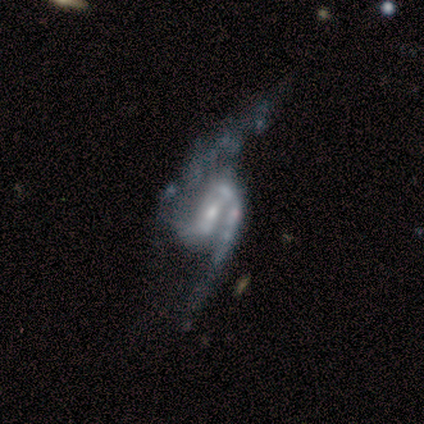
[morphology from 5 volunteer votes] Smooth or featured: featured or disk — 60% (smooth — 40%)
Edge-on disk: no — 100%
Bar: weak — 100%
Spiral arms: yes — 100%
Spiral winding: loose — 67% (medium — 33%)
Spiral arm count: 2 — 100%
Bulge size: small — 100%
Merging: major disturbance — 80% (none — 20%)